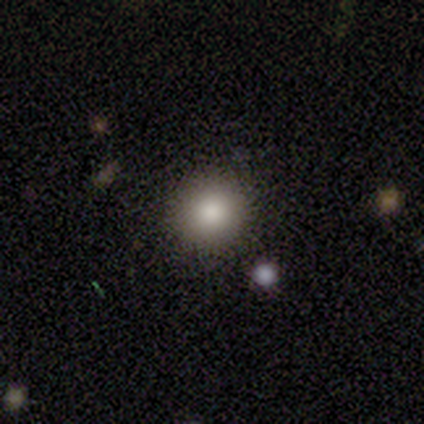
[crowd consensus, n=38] Q: Smooth or featured?
A: smooth (95%); runner-up: star or artifact (5%)
Q: How rounded?
A: round (89%); runner-up: in between (8%)
Q: Merging?
A: none (86%); runner-up: minor disturbance (8%)